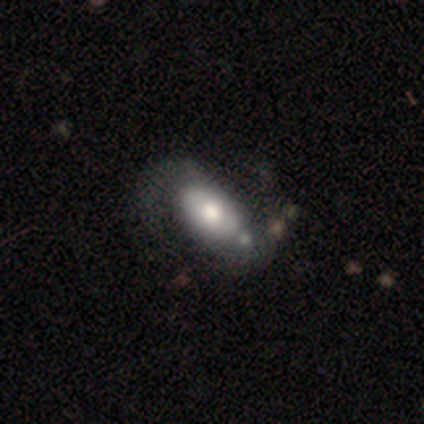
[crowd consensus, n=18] Volunteers were most divided on "smooth or featured" (2-way tie): smooth: 50%, featured or disk: 50%, star or artifact: 0%. Remaining: how rounded — in between (100%); merging — major disturbance (44%).